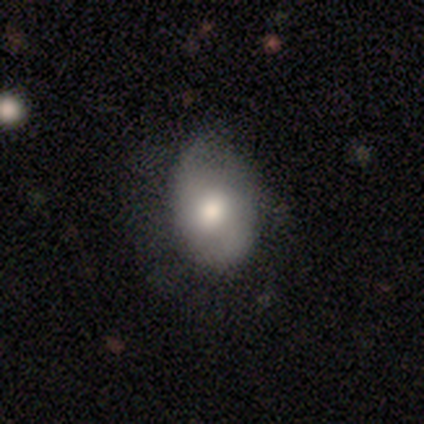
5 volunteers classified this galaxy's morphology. This appears to be a featured or disk galaxy (40%, tied with star or artifact) with no bar (100%), 2 (100%) loose (100%) spiral arms (50%, tied with no) and a large central bulge (50%, tied with moderate). Merging: none (100%).